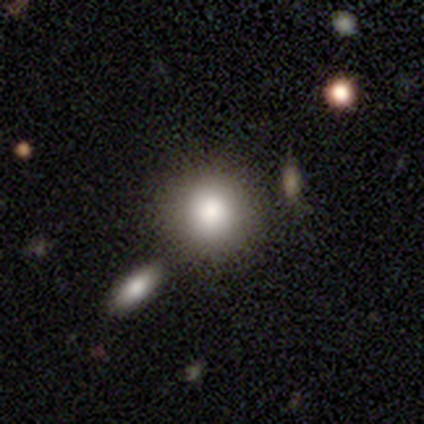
smooth_or_featured: smooth (p=0.80) [alt: featured or disk p=0.10]
how_rounded: round (p=0.88) [alt: in between p=0.12]
merging: none (p=0.67) [alt: minor disturbance p=0.22]